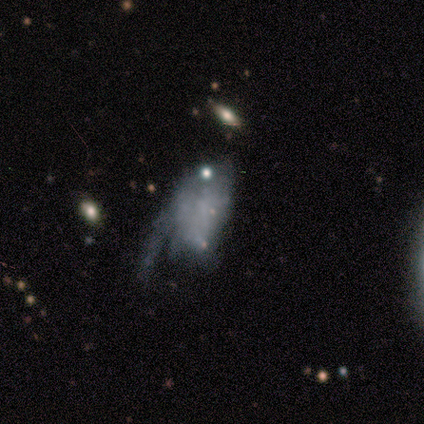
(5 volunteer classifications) featured or disk 80%, smooth 20%, star or artifact 0%. Down the decision tree: edge-on disk — no (100%); bar — no (100%); spiral arms — no (100%); bulge size — none (50%); merging — major disturbance (60%).